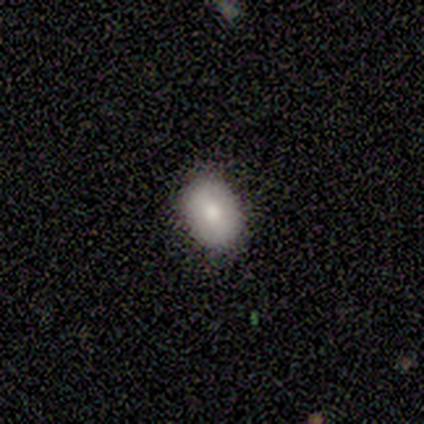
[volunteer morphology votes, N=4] smooth_or_featured: smooth (p=0.50) [alt: featured or disk p=0.25]
how_rounded: round (p=1.00)
merging: none (p=1.00)